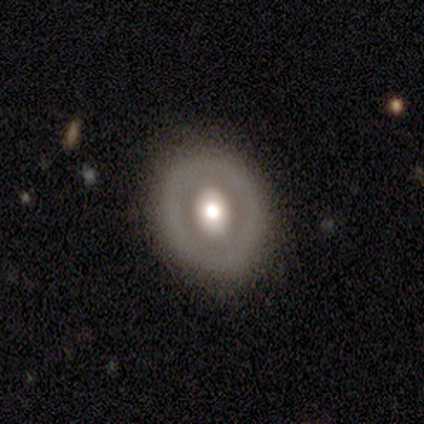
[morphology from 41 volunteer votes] Q: Smooth or featured?
A: featured or disk (73%); runner-up: smooth (24%)
Q: Edge-on disk?
A: no (100%)
Q: Bar?
A: no (87%); runner-up: weak (10%)
Q: Spiral arms?
A: no (97%); runner-up: yes (3%)
Q: Bulge size?
A: moderate (63%); runner-up: large (30%)
Q: Merging?
A: none (82%); runner-up: minor disturbance (15%)